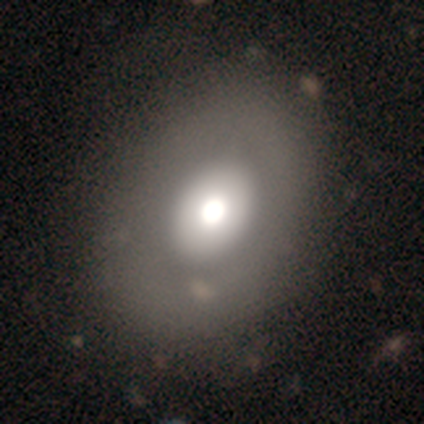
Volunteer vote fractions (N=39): Q: Smooth or featured?
A: smooth (67%); runner-up: featured or disk (31%)
Q: How rounded?
A: in between (58%); runner-up: round (38%)
Q: Merging?
A: none (55%); runner-up: merger (8%)